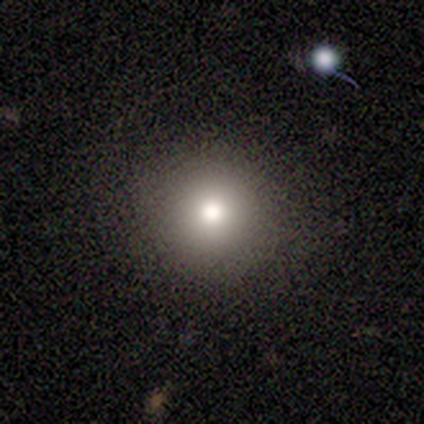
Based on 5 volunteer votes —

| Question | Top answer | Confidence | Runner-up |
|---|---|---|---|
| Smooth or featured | smooth | 80% | featured or disk (20%) |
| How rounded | round | 75% | in between (25%) |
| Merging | none | 80% | minor disturbance (20%) |